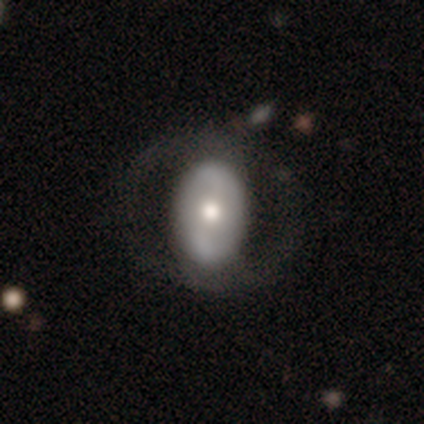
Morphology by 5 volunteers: smooth-or-featured: featured or disk: 60% | smooth: 40% | star or artifact: 0%
  disk-edge-on: no: 100% | yes: 0%
    bar: strong: 67% | no: 33% | weak: 0%
    has-spiral-arms: yes: 67% | no: 33%
      spiral-winding: medium: 100% | tight: 0% | loose: 0%
      spiral-arm-count: 2: 100% | 1: 0% | 3: 0% | 4: 0% | more than 4: 0% | can't tell: 0%
    bulge-size: dominant: 33% (tied) | large: 33% (tied) | moderate: 33% (tied) | small: 0% | none: 0%
  merging: none: 80% | major disturbance: 20% | minor disturbance: 0% | merger: 0%